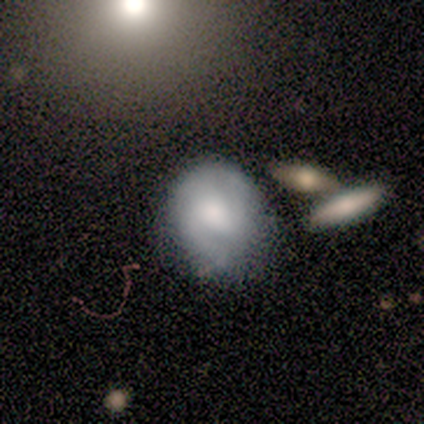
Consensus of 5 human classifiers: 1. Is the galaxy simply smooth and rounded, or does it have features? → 60% smooth, 40% featured or disk, 0% star or artifact.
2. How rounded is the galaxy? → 100% round, 0% in between, 0% cigar-shaped.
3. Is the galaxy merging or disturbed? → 60% none, 40% merger, 0% minor disturbance, 0% major disturbance.